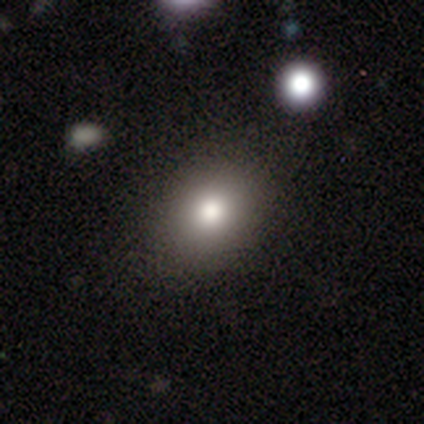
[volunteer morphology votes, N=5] Smooth or featured? smooth (100%)
How rounded? in between (60%)
Merging? none (60%)